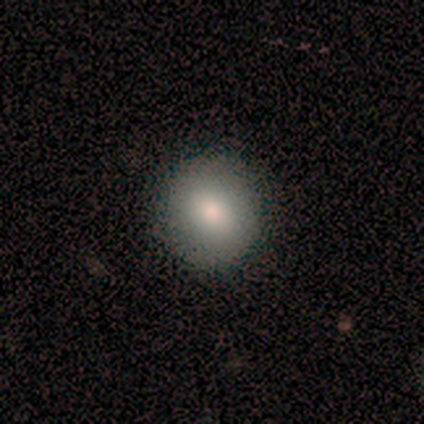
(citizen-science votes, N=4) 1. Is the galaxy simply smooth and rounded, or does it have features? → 100% smooth, 0% featured or disk, 0% star or artifact.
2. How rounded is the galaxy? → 100% round, 0% in between, 0% cigar-shaped.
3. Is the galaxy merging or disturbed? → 100% none, 0% minor disturbance, 0% major disturbance, 0% merger.